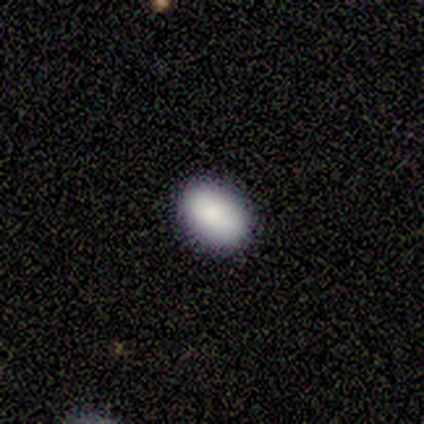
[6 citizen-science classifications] Morphology: type=smooth (83%); roundness=in between (80%); merging=none (100%).